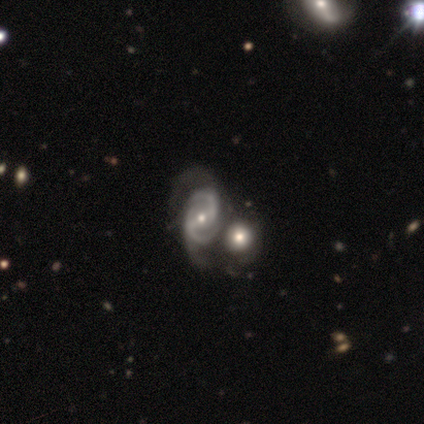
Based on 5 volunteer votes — featured or disk 100%, smooth 0%, star or artifact 0%. Down the decision tree: edge-on disk — no (100%); bar — strong (80%); spiral arms — yes (100%); spiral arm count — 2 (80%); spiral winding — medium (80%); bulge size — moderate (60%); merging — minor disturbance (40%, tied with merger).